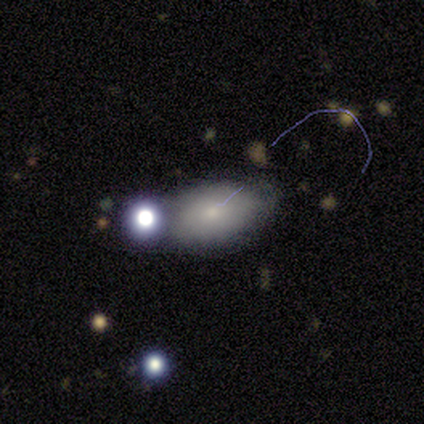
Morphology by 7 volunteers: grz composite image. It shows a smooth galaxy with no disk features (57%) that is in between round and cigar-shaped (75%). Merging: none (60%).